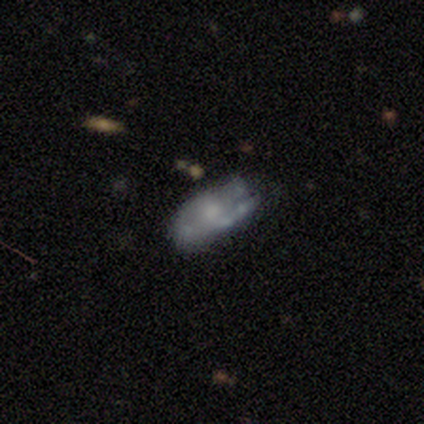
Smooth or featured?
  - featured or disk: 60% *
  - smooth: 40%
  - star or artifact: 0%
Edge-on disk?
  - no: 67% *
  - yes: 33%
Bar?
  - no: 100% *
  - strong: 0%
  - weak: 0%
Spiral arms?
  - yes: 50% * (tied)
  - no: 50% * (tied)
Spiral winding?
  - tight: 100% *
  - medium: 0%
  - loose: 0%
Spiral arm count?
  - 1: 100% *
  - 2: 0%
  - 3: 0%
  - 4: 0%
  - more than 4: 0%
  - can't tell: 0%
Bulge size?
  - small: 50% * (tied)
  - none: 50% * (tied)
  - dominant: 0%
  - large: 0%
  - moderate: 0%
Merging?
  - minor disturbance: 60% *
  - major disturbance: 20%
  - merger: 20%
  - none: 0%